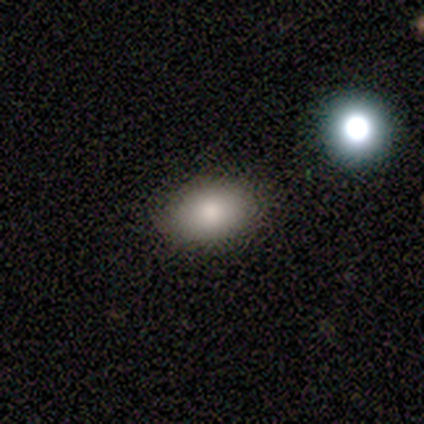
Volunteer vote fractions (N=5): A smooth galaxy with no disk features (60%) that is in between round and cigar-shaped (67%).

Vote fractions:
- Smooth or featured? smooth: 60% / featured or disk: 20% / star or artifact: 20%
- How rounded? in between: 67% / cigar-shaped: 33% / round: 0%
- Merging? none: 50% / minor disturbance: 25% / major disturbance: 25% / merger: 0%